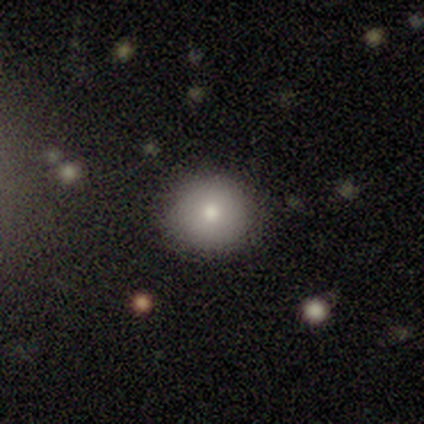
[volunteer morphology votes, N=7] Smooth or featured? smooth (71%)
How rounded? round (80%)
Merging? none (100%)